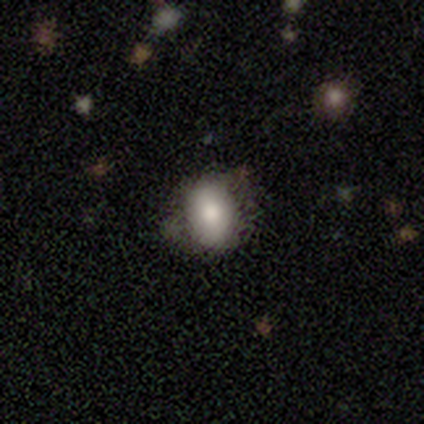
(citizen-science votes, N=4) smooth-or-featured: smooth: 75% | featured or disk: 25% | star or artifact: 0%
  how-rounded: in between: 100% | round: 0% | cigar-shaped: 0%
  merging: none: 100% | minor disturbance: 0% | major disturbance: 0% | merger: 0%